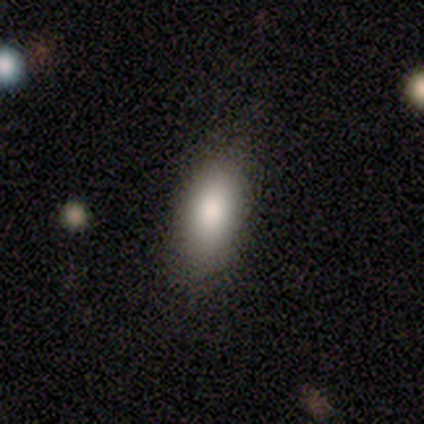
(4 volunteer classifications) Smooth or featured: smooth — 75% (star or artifact — 25%)
How rounded: in between — 67% (cigar-shaped — 33%)
Merging: none — 67% (minor disturbance — 33%)